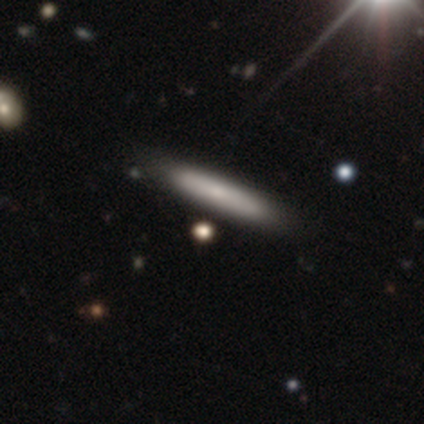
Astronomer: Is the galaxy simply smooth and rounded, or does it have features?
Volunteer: smooth — 59% (runner-up: featured or disk, 36%).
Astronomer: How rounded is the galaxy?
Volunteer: cigar-shaped — 96%.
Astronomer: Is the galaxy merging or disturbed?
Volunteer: none — 62%.